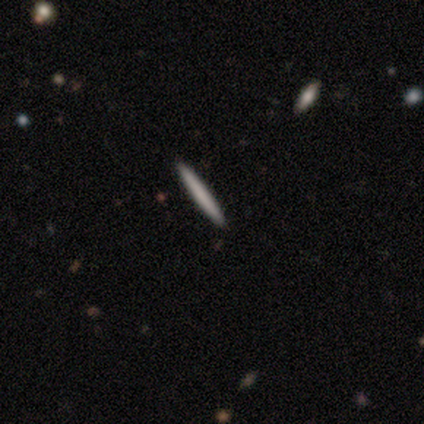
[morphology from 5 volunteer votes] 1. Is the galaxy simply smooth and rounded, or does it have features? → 100% smooth, 0% featured or disk, 0% star or artifact.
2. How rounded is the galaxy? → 100% cigar-shaped, 0% round, 0% in between.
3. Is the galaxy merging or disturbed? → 100% none, 0% minor disturbance, 0% major disturbance, 0% merger.